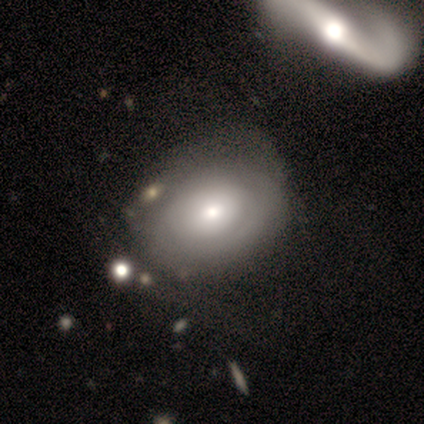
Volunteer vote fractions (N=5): Overall: smooth (100%). How rounded: in between (60%; round 40%). Merging: none (60%; minor disturbance 20%).